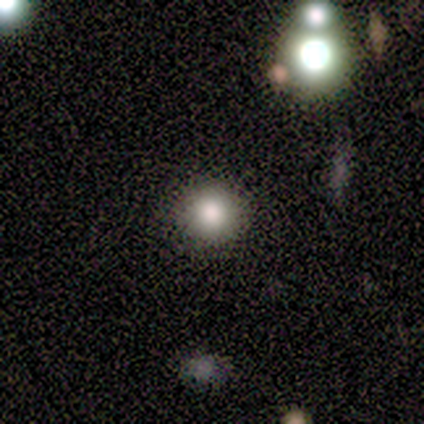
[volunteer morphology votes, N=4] smooth 75%, featured or disk 25%, star or artifact 0%. Down the decision tree: how rounded — round (100%); merging — none (100%).